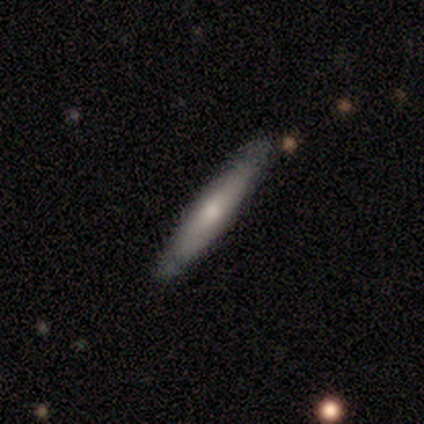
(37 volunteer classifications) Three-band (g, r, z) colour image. It shows a featured or disk galaxy (54%) viewed edge-on (95%) with a rounded central bulge (79%). Merging: none (78%).